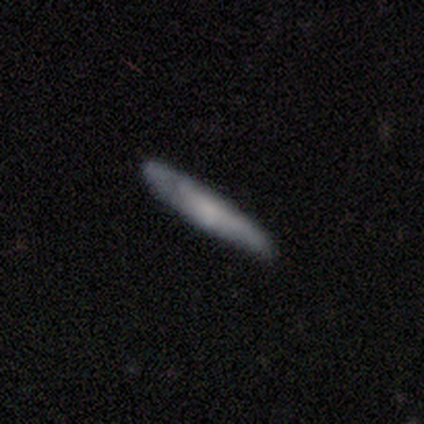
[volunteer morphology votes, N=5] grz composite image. It shows a smooth galaxy with no disk features (60%) that is cigar-shaped (100%). Merging: none (50%).